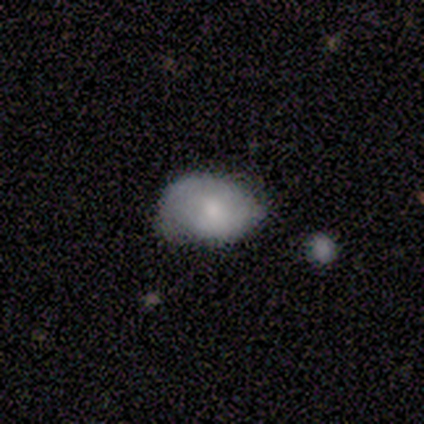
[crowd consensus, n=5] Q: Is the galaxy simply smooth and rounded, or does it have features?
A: smooth — 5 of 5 (100%).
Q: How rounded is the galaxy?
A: in between — 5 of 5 (100%).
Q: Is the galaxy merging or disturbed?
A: none — 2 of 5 (40%, tied with minor disturbance).